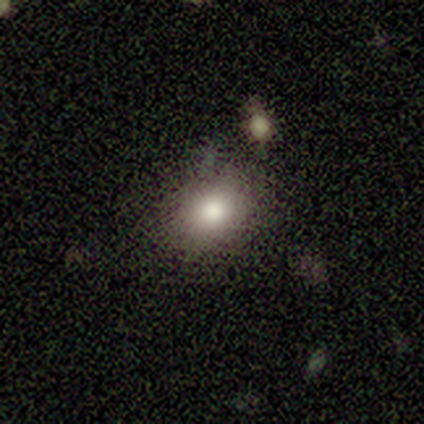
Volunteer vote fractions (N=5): A smooth galaxy with no disk features (80%) that is round (75%).

Vote fractions:
- Smooth or featured? smooth: 80% / star or artifact: 20% / featured or disk: 0%
- How rounded? round: 75% / in between: 25% / cigar-shaped: 0%
- Merging? none: 75% / minor disturbance: 25% / major disturbance: 0% / merger: 0%